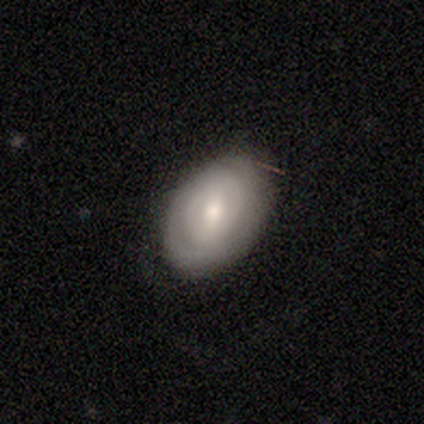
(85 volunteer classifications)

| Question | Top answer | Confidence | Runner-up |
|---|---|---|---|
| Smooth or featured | featured or disk | 51% | smooth (44%) |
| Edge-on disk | no | 95% | yes (5%) |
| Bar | weak | 54% | no (29%) |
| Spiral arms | yes | 51% | no (49%) |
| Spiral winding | tight | 76% | medium (19%) |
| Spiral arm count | can't tell | 52% | 2 (38%) |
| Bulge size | moderate | 56% | small (34%) |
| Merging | none | 79% | minor disturbance (16%) |